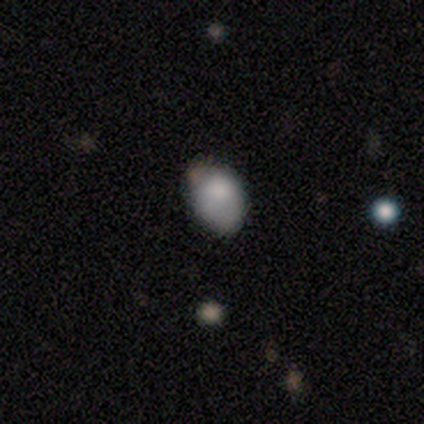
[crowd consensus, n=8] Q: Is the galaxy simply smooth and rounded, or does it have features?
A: smooth — 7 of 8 (88%).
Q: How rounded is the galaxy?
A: in between — 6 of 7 (86%).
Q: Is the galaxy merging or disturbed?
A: none — 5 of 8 (62%).